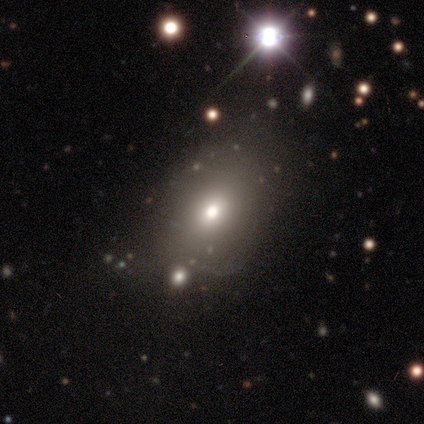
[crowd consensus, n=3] Q: Smooth or featured?
A: smooth (67%); runner-up: featured or disk (33%)
Q: How rounded?
A: round (50%); tied with: in between (50%)
Q: Merging?
A: none (67%); runner-up: major disturbance (33%)